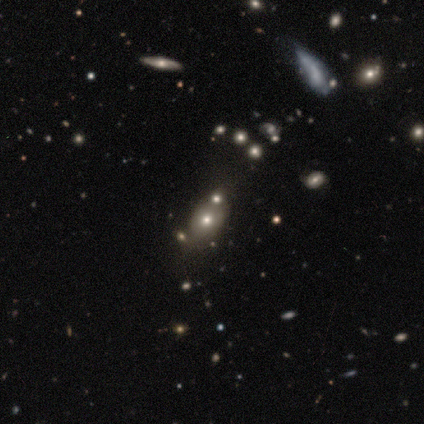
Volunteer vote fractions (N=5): A smooth galaxy with no disk features (60%) that is in between round and cigar-shaped (100%). Merging: none (50%).